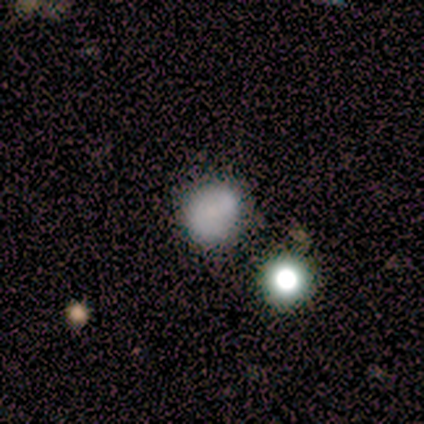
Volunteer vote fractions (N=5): This appears to be a smooth galaxy with no disk features (80%) that is round (100%). Merging: none (100%).